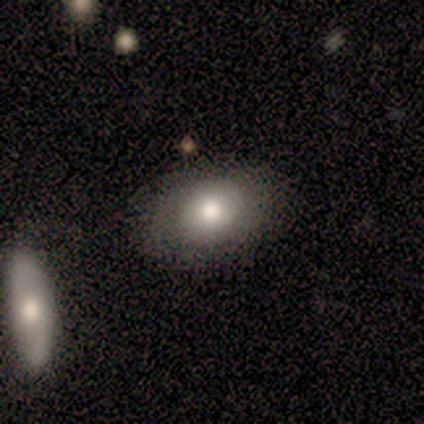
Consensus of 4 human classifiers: This appears to be a smooth galaxy with no disk features (75%) that is in between round and cigar-shaped (100%). Merging: none (75%).